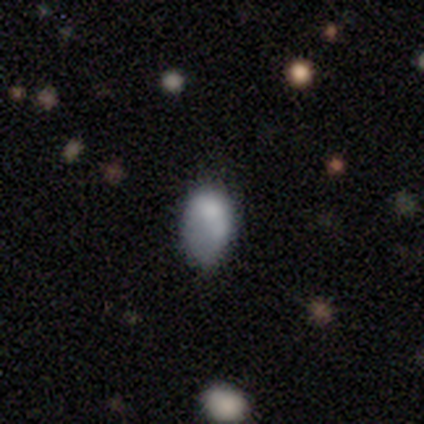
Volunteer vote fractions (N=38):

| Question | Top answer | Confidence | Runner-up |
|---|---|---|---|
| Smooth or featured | smooth | 66% | featured or disk (18%) |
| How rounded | in between | 92% | round (8%) |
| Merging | none | 41% | minor disturbance (31%) |